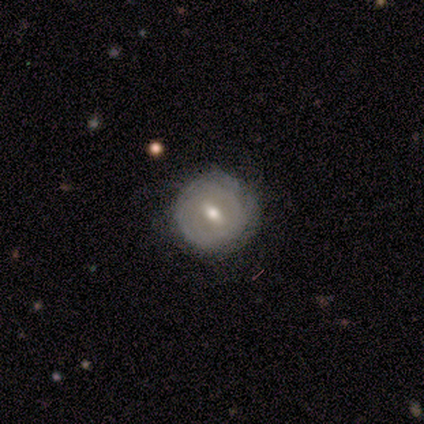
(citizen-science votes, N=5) This appears to be a featured or disk galaxy (60%) with a strong bar (33%, tied with weak and no), tight (100%) spiral arms (67%) and a moderate central bulge (67%). Merging: none (50%, tied with minor disturbance).